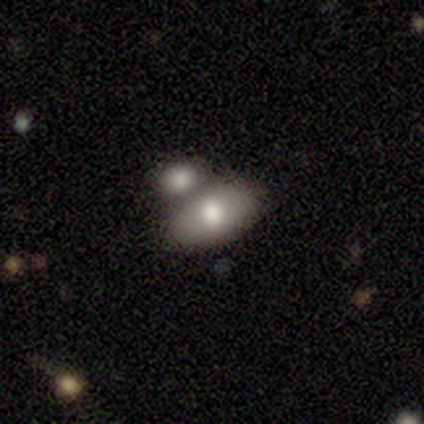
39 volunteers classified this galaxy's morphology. A smooth galaxy with no disk features (79%) that is in between round and cigar-shaped (97%).

Vote fractions:
- Smooth or featured? smooth: 79% / star or artifact: 13% / featured or disk: 8%
- How rounded? in between: 97% / cigar-shaped: 3% / round: 0%
- Merging? none: 53% / merger: 38% / minor disturbance: 6% / major disturbance: 3%